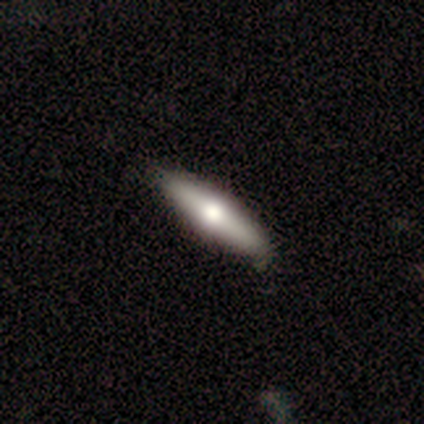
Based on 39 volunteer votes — Smooth or featured? 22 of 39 (56%) said smooth. How rounded? 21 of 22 (95%) said cigar-shaped. Merging? 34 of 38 (89%) said none.